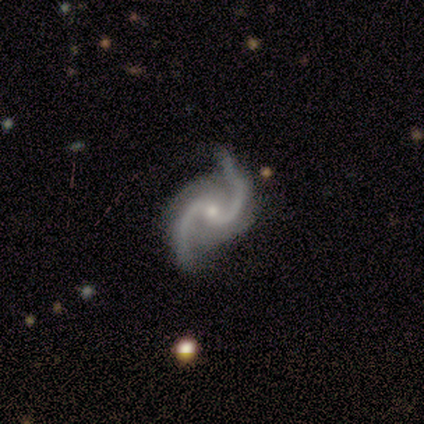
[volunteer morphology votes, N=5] type=featured or disk (100%); edge-on=no (100%); bar=no (60%); spiral arms=yes (100%); winding=loose (60%); arm count=2 (100%); bulge=small (100%); merging=none (80%).